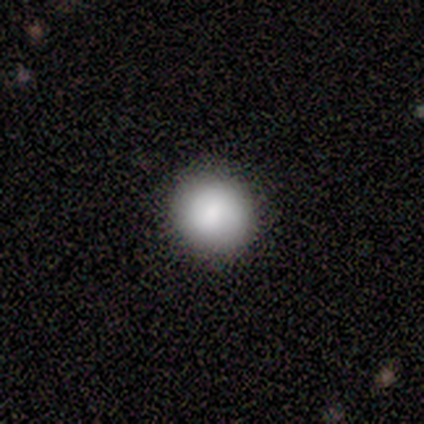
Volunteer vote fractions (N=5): Smooth or featured: smooth — 60% (featured or disk — 20%)
How rounded: round — 100%
Merging: none — 100%